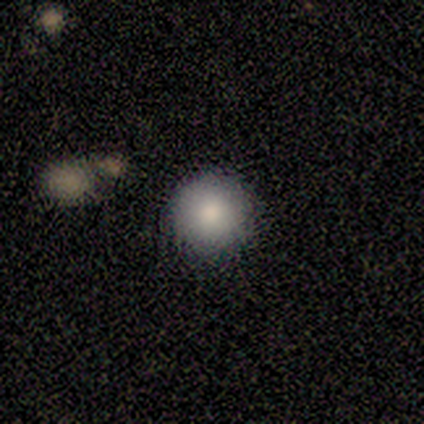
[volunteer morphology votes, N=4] Smooth or featured? smooth (100%)
How rounded? round (100%)
Merging? none (100%)